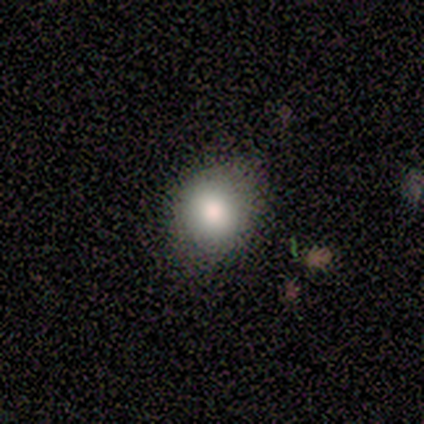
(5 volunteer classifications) smooth-or-featured: smooth: 80% | star or artifact: 20% | featured or disk: 0%
  how-rounded: round: 100% | in between: 0% | cigar-shaped: 0%
  merging: none: 75% | minor disturbance: 25% | major disturbance: 0% | merger: 0%